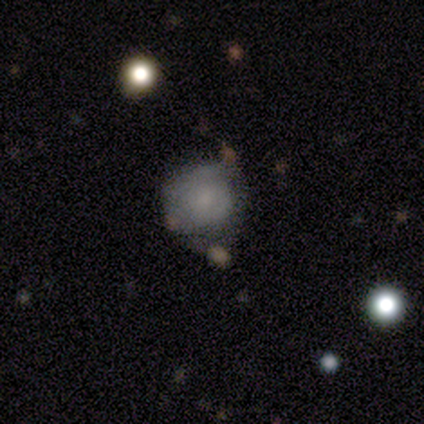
Volunteers were most divided on "smooth or featured": smooth: 50%, featured or disk: 33%, star or artifact: 17%. More confident: how rounded — round (100%); merging — none (80%).